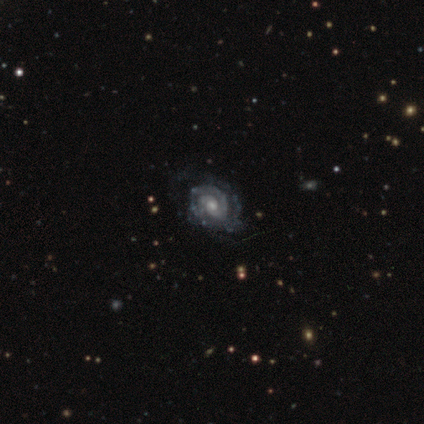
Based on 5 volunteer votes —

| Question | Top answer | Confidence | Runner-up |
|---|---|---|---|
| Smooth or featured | featured or disk | 100% | — |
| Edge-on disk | no | 100% | — |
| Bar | weak | 40% | tied: no (40%) |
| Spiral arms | yes | 100% | — |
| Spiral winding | tight | 60% | medium (40%) |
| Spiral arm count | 2 | 40% | tied: can't tell (40%) |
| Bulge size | moderate | 80% | small (20%) |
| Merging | none | 80% | major disturbance (20%) |